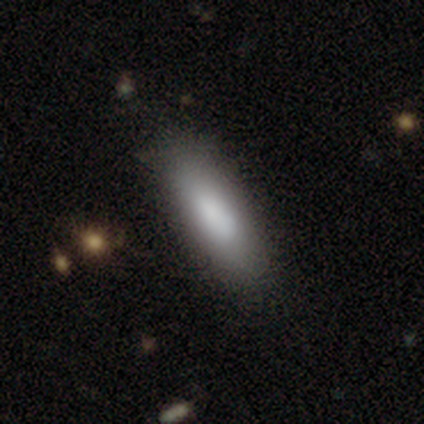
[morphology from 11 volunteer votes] Smooth or featured?
  - smooth: 82% *
  - featured or disk: 9%
  - star or artifact: 9%
How rounded?
  - in between: 78% *
  - cigar-shaped: 22%
  - round: 0%
Merging?
  - none: 80% *
  - minor disturbance: 20%
  - major disturbance: 0%
  - merger: 0%